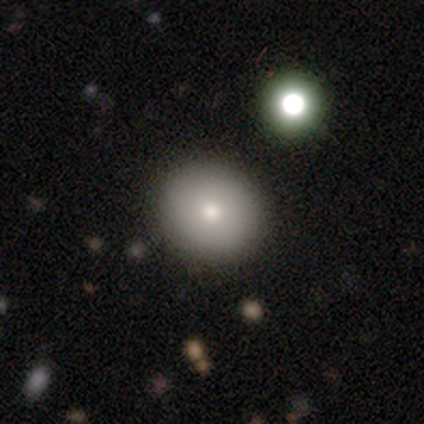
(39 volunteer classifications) Smooth or featured: smooth — 74% (featured or disk — 15%)
How rounded: round — 93% (in between — 7%)
Merging: none — 89% (merger — 6%)